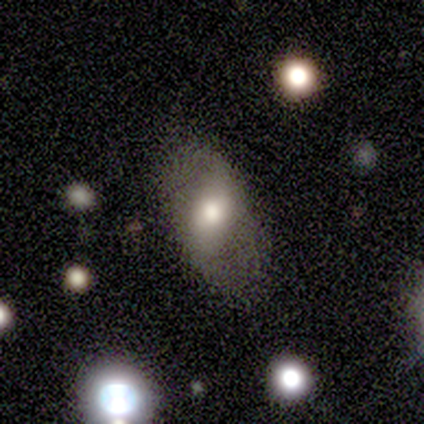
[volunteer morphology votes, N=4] Smooth or featured?
  - smooth: 50% * (tied)
  - featured or disk: 50% * (tied)
  - star or artifact: 0%
How rounded?
  - in between: 100% *
  - round: 0%
  - cigar-shaped: 0%
Merging?
  - none: 50% * (tied)
  - minor disturbance: 50% * (tied)
  - major disturbance: 0%
  - merger: 0%